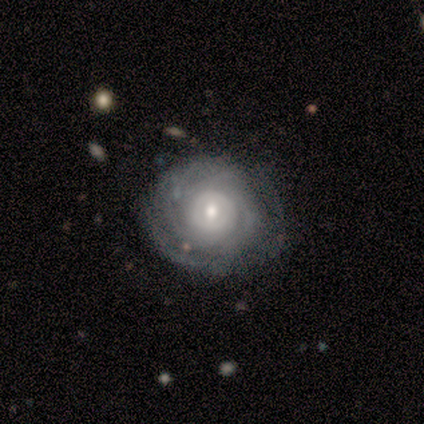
Volunteers were most divided on "bulge size" (2-way tie): moderate: 50%, small: 50%, dominant: 0%, large: 0%, none: 0%. More confident: edge-on disk — no (100%); bar — no (100%); spiral winding — tight (100%); smooth or featured — featured or disk (80%); merging — none (80%); spiral arms — yes (75%); spiral arm count — can't tell (67%).